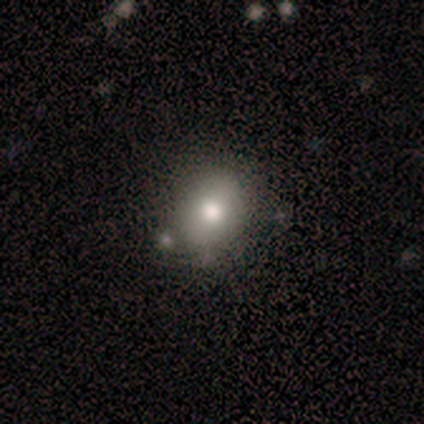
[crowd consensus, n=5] featured or disk 60%, smooth 40%, star or artifact 0%. Down the decision tree: edge-on disk — no (100%); bar — no (100%); spiral arms — no (100%); bulge size — large (33%, tied with moderate and small); merging — none (60%).